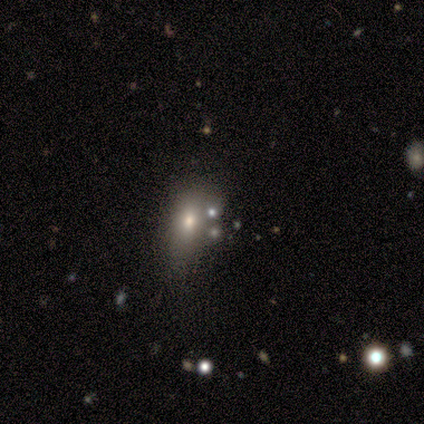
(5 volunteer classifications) Smooth or featured? 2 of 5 (40%, tied with star or artifact) said smooth. How rounded? 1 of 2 (50%, tied with in between) said round. Merging? 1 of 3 (33%, tied with minor disturbance and merger) said none.